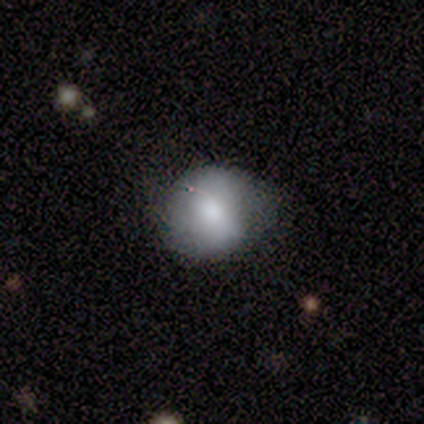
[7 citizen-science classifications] smooth-or-featured: smooth: 57% | featured or disk: 43% | star or artifact: 0%
  how-rounded: round: 75% | in between: 25% | cigar-shaped: 0%
  merging: none: 71% | minor disturbance: 14% | major disturbance: 14% | merger: 0%